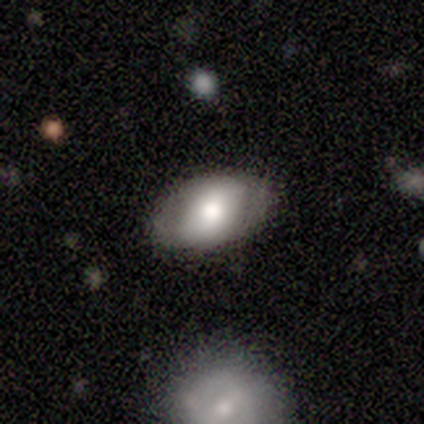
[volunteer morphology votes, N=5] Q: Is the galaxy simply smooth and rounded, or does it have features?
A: featured or disk — 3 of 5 (60%).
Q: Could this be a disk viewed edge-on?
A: no — 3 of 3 (100%).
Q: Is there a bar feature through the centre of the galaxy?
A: strong — 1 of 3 (33%, tied with weak and no).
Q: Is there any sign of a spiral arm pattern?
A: yes — 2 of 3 (67%).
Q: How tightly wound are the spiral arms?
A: loose — 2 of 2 (100%).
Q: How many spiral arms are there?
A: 1 — 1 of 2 (50%, tied with 2).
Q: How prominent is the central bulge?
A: large — 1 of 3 (33%, tied with moderate and small).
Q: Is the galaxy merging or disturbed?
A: none — 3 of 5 (60%).